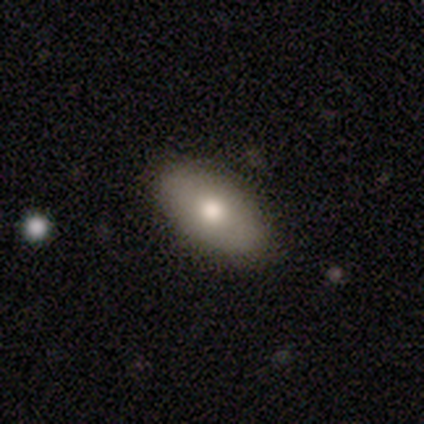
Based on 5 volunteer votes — A smooth galaxy with no disk features (60%) that is in between round and cigar-shaped (67%). Merging: none (60%).